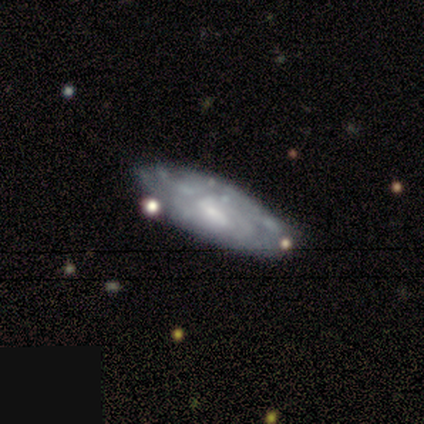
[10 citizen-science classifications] This appears to be a featured or disk galaxy (70%) with no bar (60%), tight (100%) spiral arms (80%) and a small central bulge (40%). Merging: none (78%).